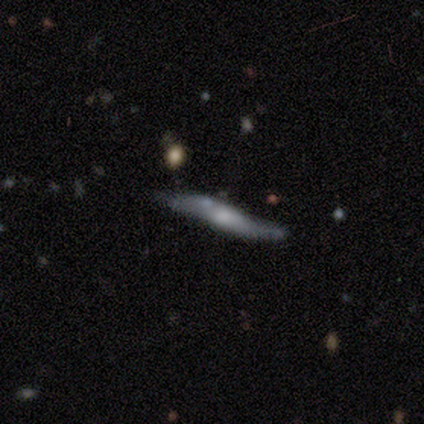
Morphology: type=featured or disk (63%); edge-on=yes (64%); edge-on bulge=rounded (64%); merging=none (55%).